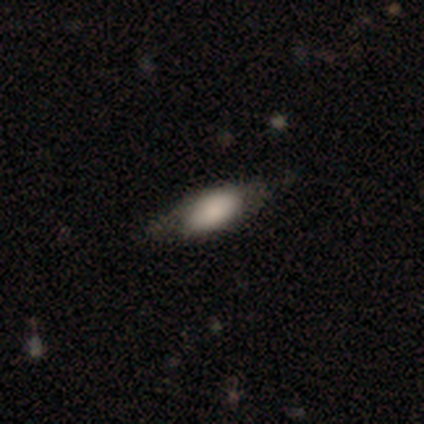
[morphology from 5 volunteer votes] Smooth or featured? 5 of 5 (100%) said smooth. How rounded? 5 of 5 (100%) said in between. Merging? 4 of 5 (80%) said minor disturbance.